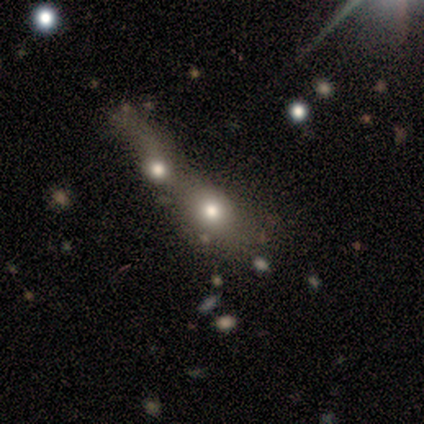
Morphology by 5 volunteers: Overall: smooth (60%; featured or disk 40%). How rounded: round (100%). Merging: merger (60%; none 20%).